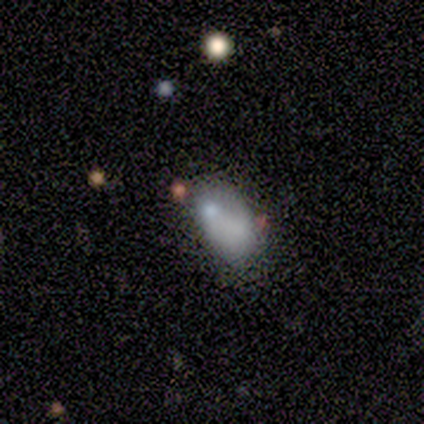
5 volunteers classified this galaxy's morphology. Smooth or featured?
  - smooth: 60% *
  - featured or disk: 40%
  - star or artifact: 0%
How rounded?
  - in between: 100% *
  - round: 0%
  - cigar-shaped: 0%
Merging?
  - none: 80% *
  - merger: 20%
  - minor disturbance: 0%
  - major disturbance: 0%